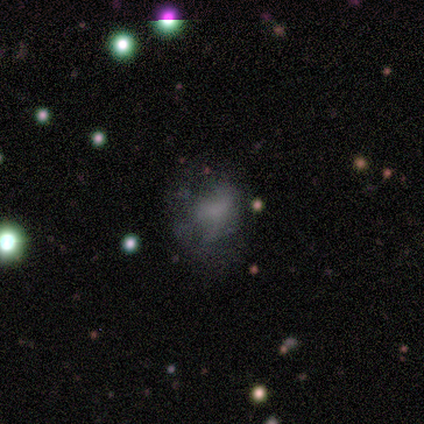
Q: Smooth or featured?
A: smooth (100%)
Q: How rounded?
A: round (50%); tied with: in between (50%)
Q: Merging?
A: none (100%)